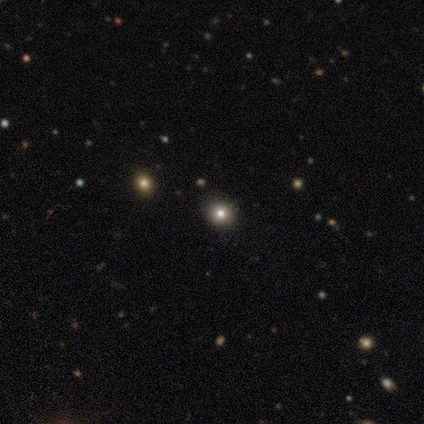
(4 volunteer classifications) Smooth or featured?
  - smooth: 50% * (tied)
  - star or artifact: 50% * (tied)
  - featured or disk: 0%
How rounded?
  - round: 100% *
  - in between: 0%
  - cigar-shaped: 0%
Merging?
  - none: 50% * (tied)
  - minor disturbance: 50% * (tied)
  - major disturbance: 0%
  - merger: 0%